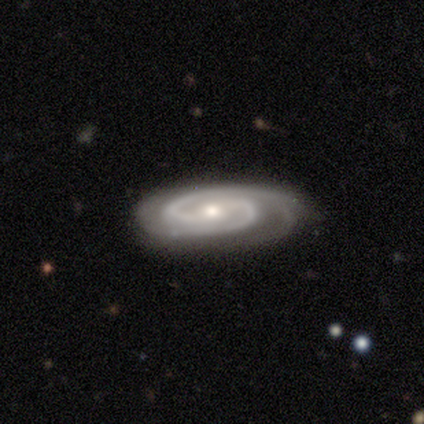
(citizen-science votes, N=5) Smooth or featured: featured or disk — 100%
Edge-on disk: no — 100%
Bar: no — 80% (weak — 20%)
Spiral arms: yes — 100%
Spiral winding: tight — 80% (medium — 20%)
Spiral arm count: 2 — 100%
Bulge size: moderate — 60% (small — 40%)
Merging: none — 100%